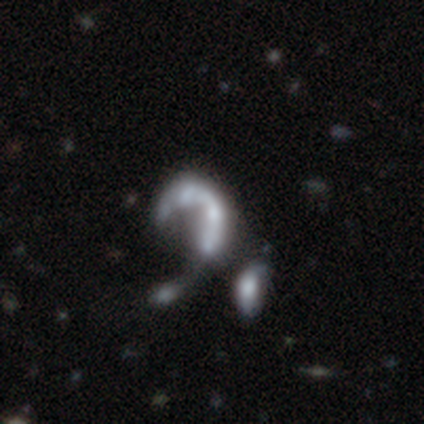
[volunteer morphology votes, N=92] A featured or disk galaxy (72%) with no bar (89%), no spiral arms (69%) and no central bulge (65%).

Vote fractions:
- Smooth or featured? featured or disk: 72% / star or artifact: 17% / smooth: 11%
- Edge-on disk? no: 98% / yes: 2%
- Bar? no: 89% / weak: 6% / strong: 5%
- Spiral arms? no: 69% / yes: 31%
- Bulge size? none: 65% / moderate: 17% / small: 12% / large: 5% / dominant: 2%
- Merging? merger: 46% / major disturbance: 30% / none: 20% / minor disturbance: 4%